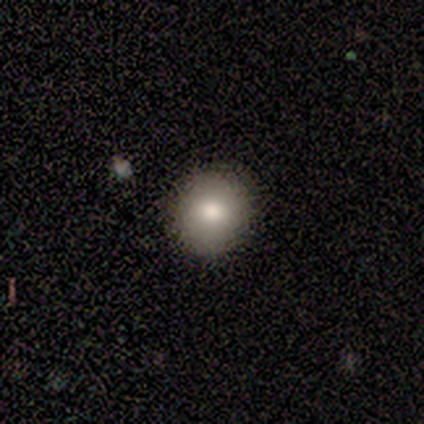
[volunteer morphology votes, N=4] A smooth galaxy with no disk features (75%) that is round (100%). Merging: none (100%).